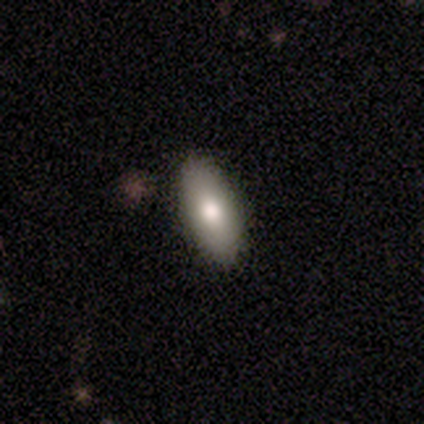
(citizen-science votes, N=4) A smooth galaxy with no disk features (75%) that is in between round and cigar-shaped (100%).

Vote fractions:
- Smooth or featured? smooth: 75% / featured or disk: 25% / star or artifact: 0%
- How rounded? in between: 100% / round: 0% / cigar-shaped: 0%
- Merging? none: 100% / minor disturbance: 0% / major disturbance: 0% / merger: 0%